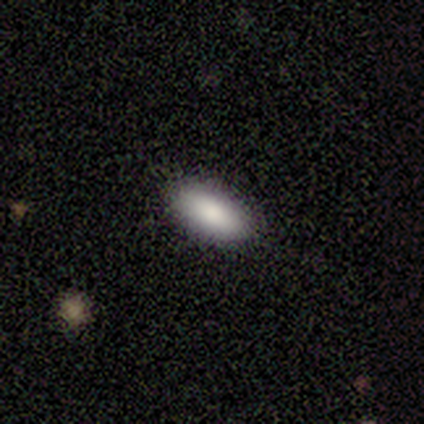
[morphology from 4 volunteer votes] smooth 100%, featured or disk 0%, star or artifact 0%. Down the decision tree: how rounded — in between (100%); merging — none (100%).